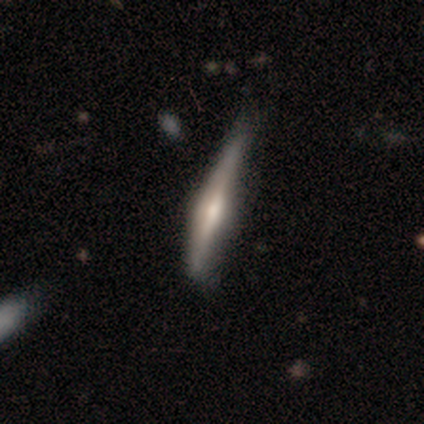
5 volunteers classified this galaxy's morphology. A featured or disk galaxy (80%) viewed edge-on (100%) with a rounded central bulge (75%). Merging: none (40%, tied with major disturbance).